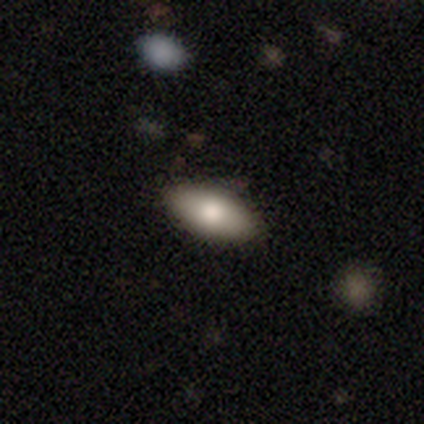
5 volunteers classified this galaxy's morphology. smooth-or-featured: smooth: 100% | featured or disk: 0% | star or artifact: 0%
  how-rounded: in between: 100% | round: 0% | cigar-shaped: 0%
  merging: none: 100% | minor disturbance: 0% | major disturbance: 0% | merger: 0%